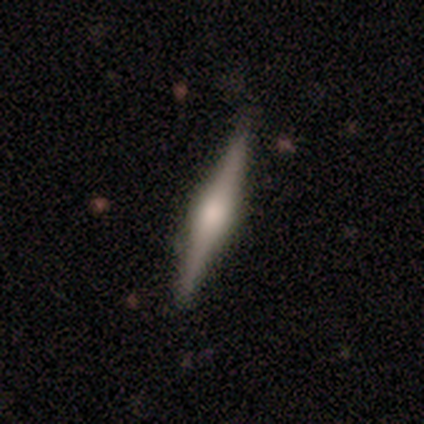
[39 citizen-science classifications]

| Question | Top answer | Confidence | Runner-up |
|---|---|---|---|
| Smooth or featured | featured or disk | 67% | smooth (31%) |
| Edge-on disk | yes | 100% | — |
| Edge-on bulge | rounded | 69% | boxy (31%) |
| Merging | none | 89% | minor disturbance (8%) |